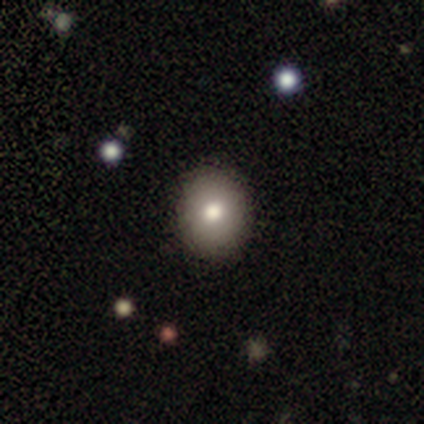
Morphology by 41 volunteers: This is clearly a smooth galaxy (80%). How rounded: likely round (61%). Merging: clearly none (95%).